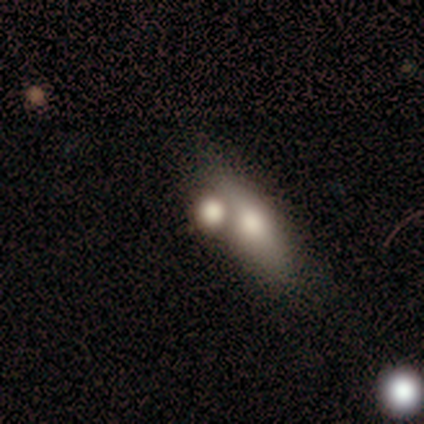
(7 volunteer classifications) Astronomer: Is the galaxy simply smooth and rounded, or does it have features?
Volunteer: smooth — 71%.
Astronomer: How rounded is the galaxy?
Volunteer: in between — 60%.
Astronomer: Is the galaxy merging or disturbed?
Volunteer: merger — 71%.